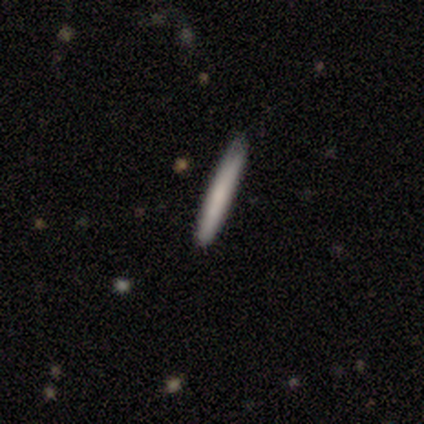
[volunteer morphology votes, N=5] A smooth galaxy with no disk features (80%) that is cigar-shaped (100%).

Vote fractions:
- Smooth or featured? smooth: 80% / star or artifact: 20% / featured or disk: 0%
- How rounded? cigar-shaped: 100% / round: 0% / in between: 0%
- Merging? none: 100% / minor disturbance: 0% / major disturbance: 0% / merger: 0%